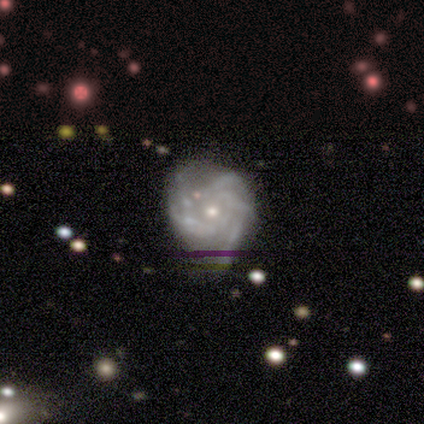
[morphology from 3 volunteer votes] This is clearly a featured or disk galaxy (100%). It is clearly not viewed edge-on (100%). Bar: marginally strong (33%, tied with weak and no). Spiral arm pattern: likely yes (67%). Spiral arm count: possibly 3 (50%, tied with 4). Spiral winding: clearly medium (100%). Central bulge: likely small (67%). Merging: likely minor disturbance (67%).